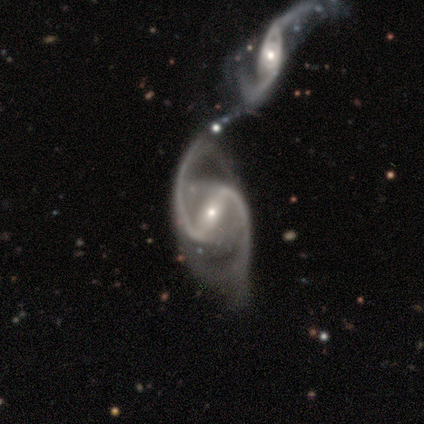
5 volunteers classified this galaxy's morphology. Smooth or featured?
  - featured or disk: 100% *
  - smooth: 0%
  - star or artifact: 0%
Edge-on disk?
  - no: 100% *
  - yes: 0%
Bar?
  - strong: 60% *
  - weak: 20%
  - no: 20%
Spiral arms?
  - yes: 100% *
  - no: 0%
Spiral winding?
  - loose: 60% *
  - medium: 40%
  - tight: 0%
Spiral arm count?
  - 2: 100% *
  - 1: 0%
  - 3: 0%
  - 4: 0%
  - more than 4: 0%
  - can't tell: 0%
Bulge size?
  - small: 80% *
  - moderate: 20%
  - dominant: 0%
  - large: 0%
  - none: 0%
Merging?
  - merger: 60% *
  - none: 20%
  - minor disturbance: 20%
  - major disturbance: 0%